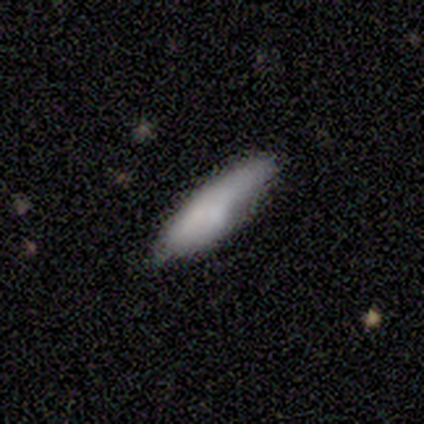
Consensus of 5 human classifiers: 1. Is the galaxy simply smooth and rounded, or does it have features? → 80% smooth, 20% featured or disk, 0% star or artifact.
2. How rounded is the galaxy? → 75% in between, 25% cigar-shaped, 0% round.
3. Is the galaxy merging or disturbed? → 40% none (tied), 40% minor disturbance (tied), 20% major disturbance, 0% merger.